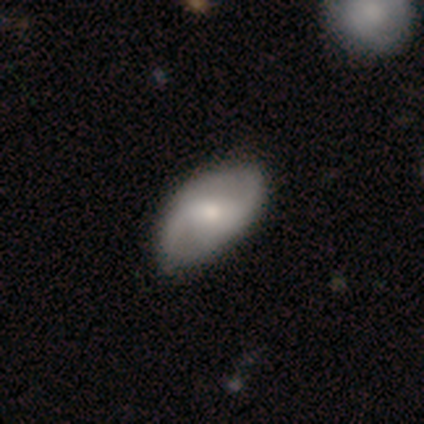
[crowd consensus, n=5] featured or disk 80%, smooth 20%, star or artifact 0%. Down the decision tree: edge-on disk — no (100%); bar — no (75%); spiral arms — yes (100%); spiral arm count — 2 (50%); spiral winding — medium (75%); bulge size — small (75%); merging — none (80%).